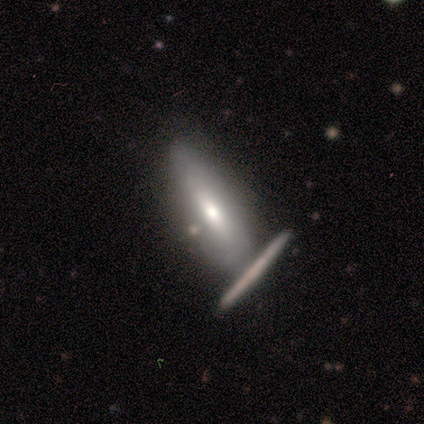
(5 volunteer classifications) Morphology: type=smooth (60%); roundness=in between (67%); merging=merger (60%).